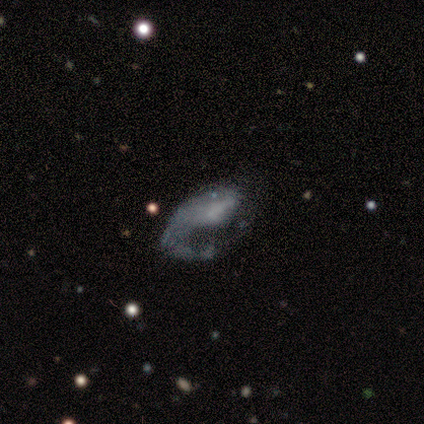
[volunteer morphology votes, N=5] Overall: featured or disk (60%; smooth 40%). Edge-on disk: no (100%). Bar: no (67%; weak 33%). Spiral arms: no (67%; yes 33%). Bulge size: small (67%; none 33%). Merging: minor disturbance (40%, tied with major disturbance).